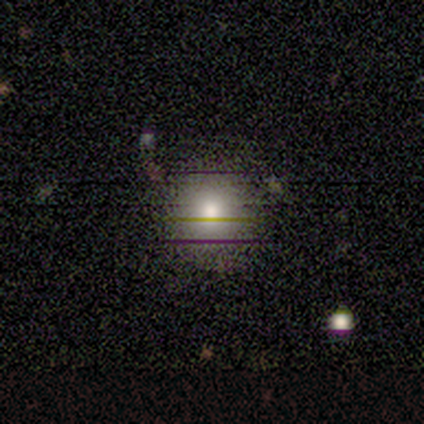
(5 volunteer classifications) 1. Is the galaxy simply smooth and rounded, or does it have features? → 60% smooth, 20% featured or disk, 20% star or artifact.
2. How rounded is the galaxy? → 100% round, 0% in between, 0% cigar-shaped.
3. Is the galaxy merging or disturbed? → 50% none, 25% minor disturbance, 25% major disturbance, 0% merger.